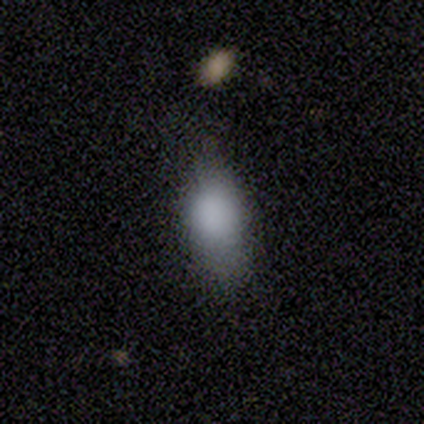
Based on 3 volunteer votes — Smooth or featured: smooth — 67% (featured or disk — 33%)
How rounded: in between — 100%
Merging: none — 67% (minor disturbance — 33%)